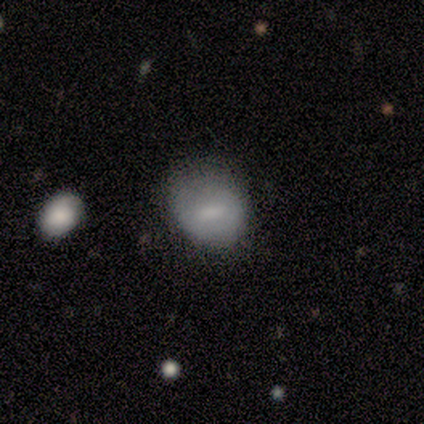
Volunteers were most divided on "merging": minor disturbance: 57%, none: 29%, major disturbance: 14%, merger: 0%. More confident: how rounded — in between (67%); smooth or featured — smooth (67%).